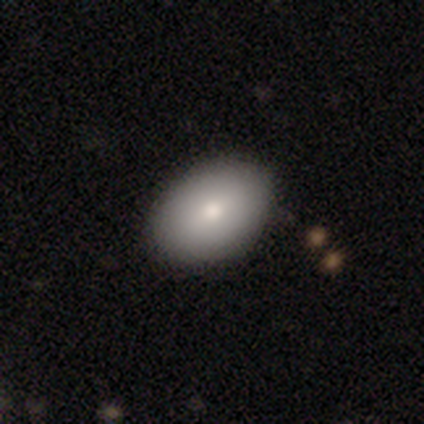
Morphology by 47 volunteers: This appears to be a smooth galaxy with no disk features (89%) that is in between round and cigar-shaped (83%). Merging: none (79%).